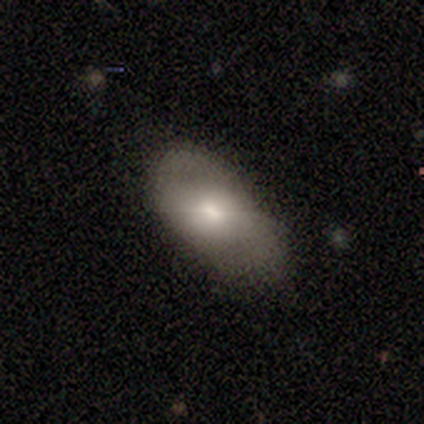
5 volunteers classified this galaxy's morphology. Q: Smooth or featured?
A: smooth (60%); runner-up: star or artifact (40%)
Q: How rounded?
A: in between (100%)
Q: Merging?
A: none (67%); runner-up: minor disturbance (33%)